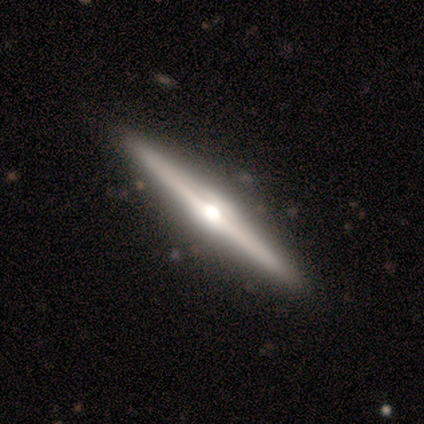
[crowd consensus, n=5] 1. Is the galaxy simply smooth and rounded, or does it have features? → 80% featured or disk, 20% smooth, 0% star or artifact.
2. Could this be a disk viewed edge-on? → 100% yes, 0% no.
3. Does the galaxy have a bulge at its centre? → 100% rounded, 0% boxy, 0% none.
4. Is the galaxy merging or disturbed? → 100% none, 0% minor disturbance, 0% major disturbance, 0% merger.